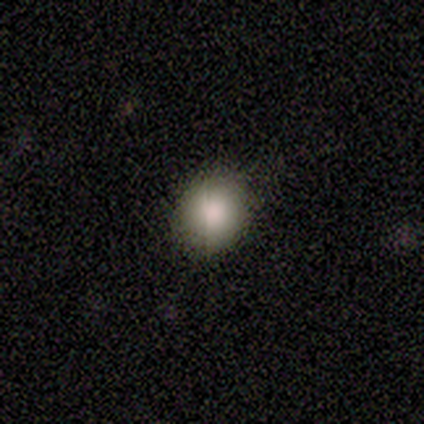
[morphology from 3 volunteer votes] smooth 67%, featured or disk 33%, star or artifact 0%. Down the decision tree: how rounded — round (100%); merging — none (100%).